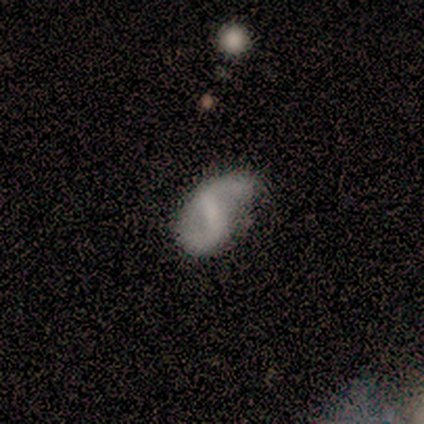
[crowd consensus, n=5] Q: Smooth or featured?
A: featured or disk (100%)
Q: Edge-on disk?
A: no (100%)
Q: Bar?
A: weak (80%); runner-up: no (20%)
Q: Spiral arms?
A: yes (100%)
Q: Spiral winding?
A: loose (60%); runner-up: medium (40%)
Q: Spiral arm count?
A: 2 (80%); runner-up: 1 (20%)
Q: Bulge size?
A: small (60%); runner-up: none (40%)
Q: Merging?
A: none (100%)